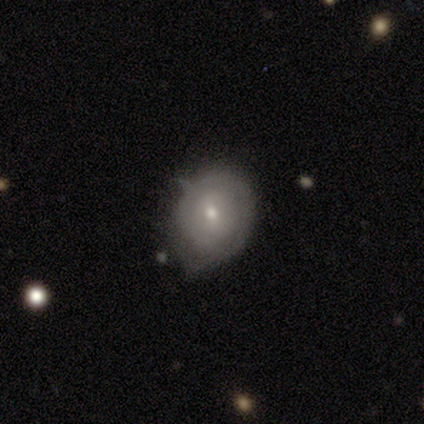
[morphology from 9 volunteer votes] featured or disk 67%, smooth 33%, star or artifact 0%. Down the decision tree: edge-on disk — no (100%); bar — no (50%); spiral arms — yes (67%); spiral arm count — 1 (25%, tied with 2, 3 and can't tell); spiral winding — tight (100%); bulge size — small (67%); merging — minor disturbance (67%).